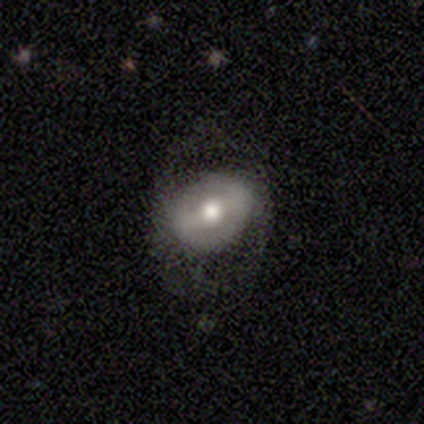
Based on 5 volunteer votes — Smooth or featured? featured or disk (100%)
Edge-on disk? no (100%)
Bar? weak (60%)
Spiral arms? no (60%)
Bulge size? moderate (100%)
Merging? minor disturbance (40%, tied with major disturbance)